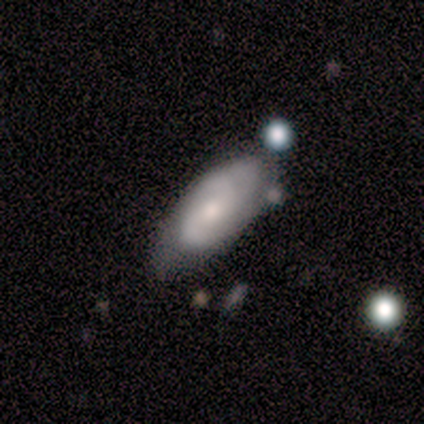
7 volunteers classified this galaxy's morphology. type=featured or disk (86%); edge-on=no (100%); bar=no (67%); spiral arms=yes (100%); winding=medium (83%); arm count=2 (67%); bulge=moderate (67%); merging=none (57%).